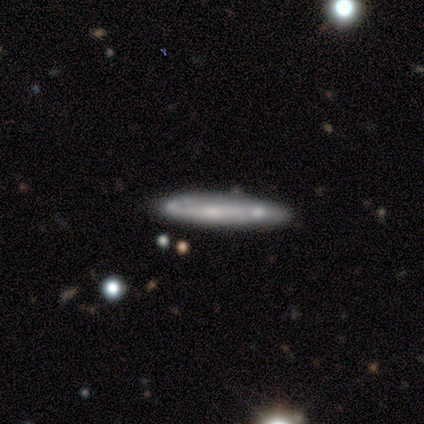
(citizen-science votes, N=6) This is possibly a smooth galaxy (50%, tied with featured or disk). How rounded: clearly cigar-shaped (100%). Merging: clearly none (100%).